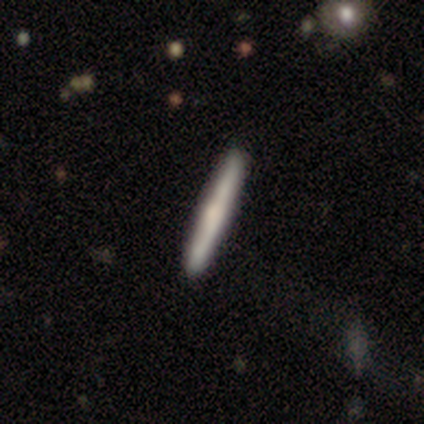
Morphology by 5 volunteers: Smooth or featured? smooth (60%)
How rounded? cigar-shaped (100%)
Merging? none (100%)